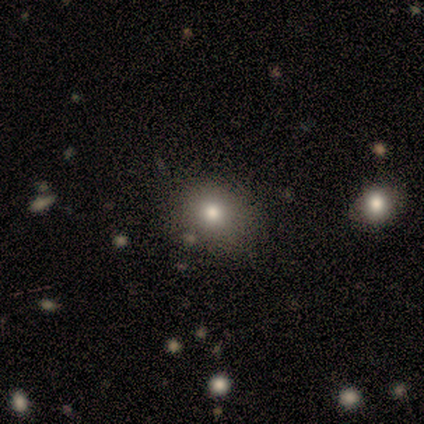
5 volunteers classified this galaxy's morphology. Volunteers were most divided on "smooth or featured": smooth: 60%, star or artifact: 40%, featured or disk: 0%. More confident: how rounded — round (100%); merging — none (67%).